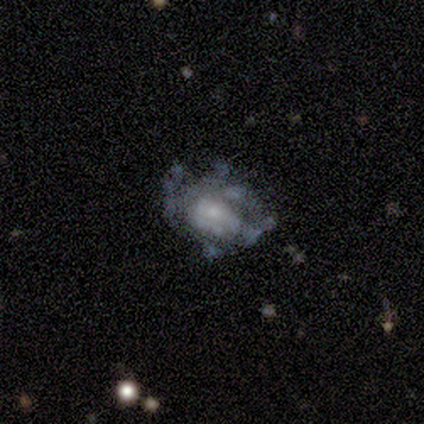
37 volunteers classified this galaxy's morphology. Smooth or featured?
  - featured or disk: 78% *
  - smooth: 19%
  - star or artifact: 3%
Edge-on disk?
  - no: 93% *
  - yes: 7%
Bar?
  - no: 89% *
  - weak: 11%
  - strong: 0%
Spiral arms?
  - no: 56% *
  - yes: 44%
Bulge size?
  - small: 56% *
  - moderate: 22%
  - none: 15%
  - large: 7%
  - dominant: 0%
Merging?
  - none: 44% *
  - major disturbance: 25%
  - minor disturbance: 22%
  - merger: 8%